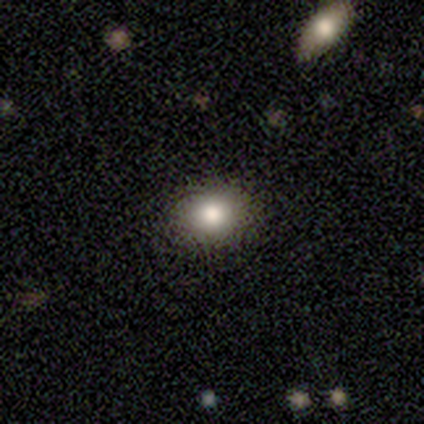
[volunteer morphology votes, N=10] A smooth galaxy with no disk features (60%) that is round (67%).

Vote fractions:
- Smooth or featured? smooth: 60% / featured or disk: 20% / star or artifact: 20%
- How rounded? round: 67% / in between: 33% / cigar-shaped: 0%
- Merging? none: 88% / minor disturbance: 12% / major disturbance: 0% / merger: 0%